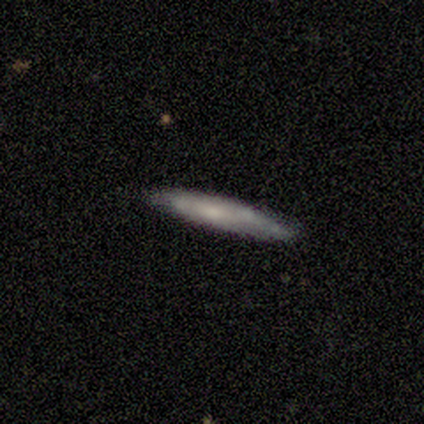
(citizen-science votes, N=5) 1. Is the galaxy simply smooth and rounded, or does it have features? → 60% featured or disk, 40% smooth, 0% star or artifact.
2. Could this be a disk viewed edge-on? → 100% yes, 0% no.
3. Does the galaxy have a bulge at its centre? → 100% none, 0% boxy, 0% rounded.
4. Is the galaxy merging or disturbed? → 100% none, 0% minor disturbance, 0% major disturbance, 0% merger.